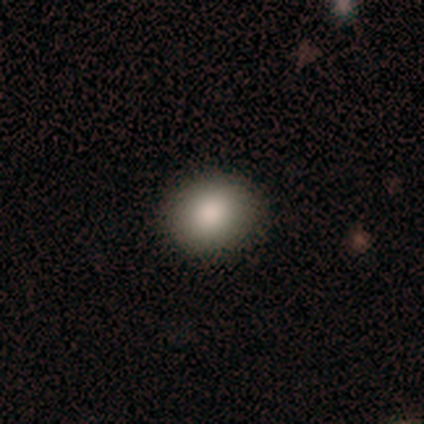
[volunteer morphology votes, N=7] Q: Smooth or featured?
A: smooth (100%)
Q: How rounded?
A: round (86%); runner-up: in between (14%)
Q: Merging?
A: none (100%)